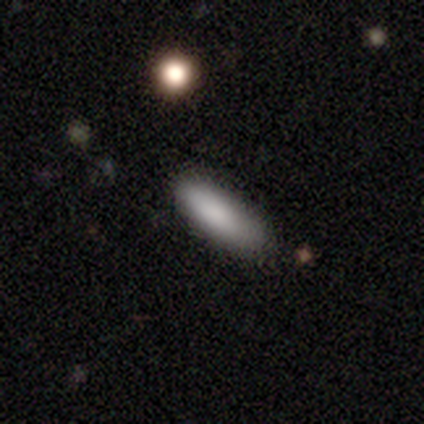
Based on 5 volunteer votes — Morphology: type=smooth (100%); roundness=in between (80%); merging=none (80%).